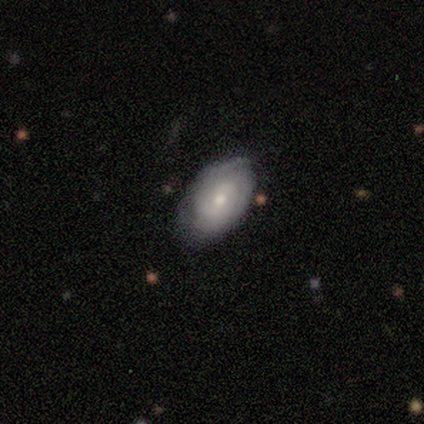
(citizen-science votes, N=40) Smooth or featured? featured or disk (52%)
Edge-on disk? no (100%)
Bar? no (52%)
Spiral arms? yes (86%)
Spiral winding? tight (83%)
Spiral arm count? can't tell (50%)
Bulge size? small (52%)
Merging? none (67%)